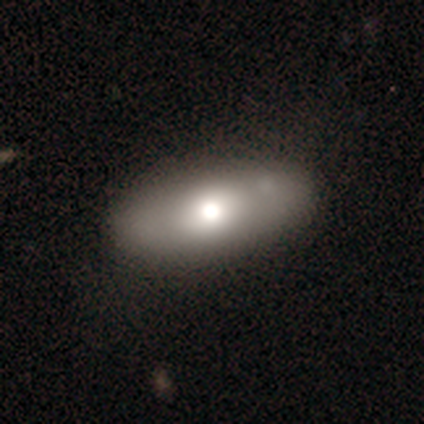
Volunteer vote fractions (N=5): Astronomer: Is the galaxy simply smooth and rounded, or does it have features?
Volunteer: smooth — 100%.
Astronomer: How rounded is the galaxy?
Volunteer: in between — 100%.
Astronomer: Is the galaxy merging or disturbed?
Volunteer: none — 100%.